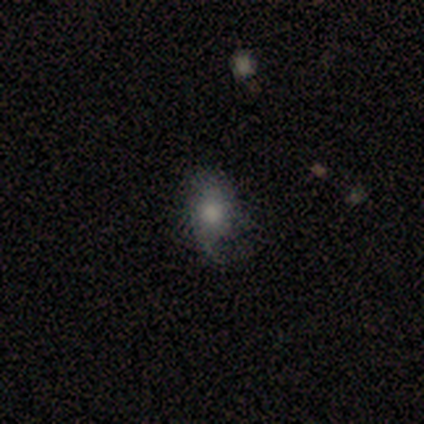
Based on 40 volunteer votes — Overall: smooth (57%; featured or disk 32%). How rounded: in between (78%). Merging: none (53%; minor disturbance 33%).